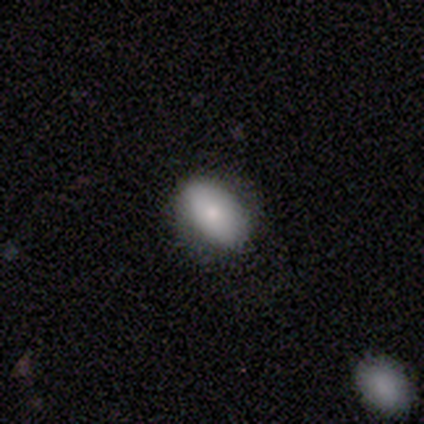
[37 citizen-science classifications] Q: Smooth or featured?
A: smooth (81%); runner-up: featured or disk (16%)
Q: How rounded?
A: in between (87%); runner-up: round (13%)
Q: Merging?
A: none (81%); runner-up: minor disturbance (17%)